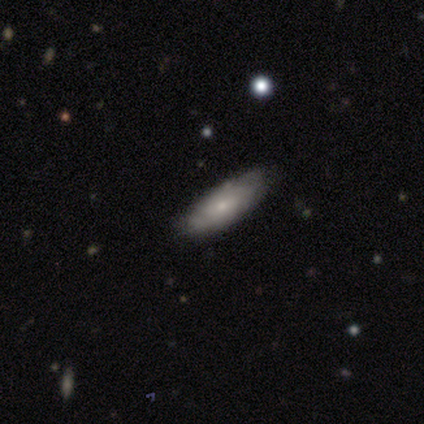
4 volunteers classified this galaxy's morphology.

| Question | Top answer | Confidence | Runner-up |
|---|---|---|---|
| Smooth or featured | smooth | 50% | featured or disk (25%) |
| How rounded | in between | 100% | — |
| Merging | none | 100% | — |